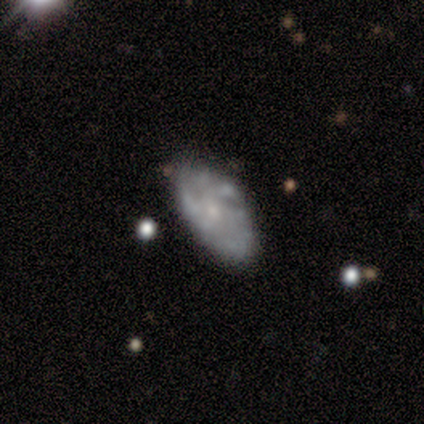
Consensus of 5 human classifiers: smooth-or-featured: featured or disk: 80% | smooth: 20% | star or artifact: 0%
  disk-edge-on: no: 100% | yes: 0%
    bar: no: 100% | strong: 0% | weak: 0%
    has-spiral-arms: no: 75% | yes: 25%
    bulge-size: small: 100% | dominant: 0% | large: 0% | moderate: 0% | none: 0%
  merging: none: 40% | minor disturbance: 20% | major disturbance: 20% | merger: 20%